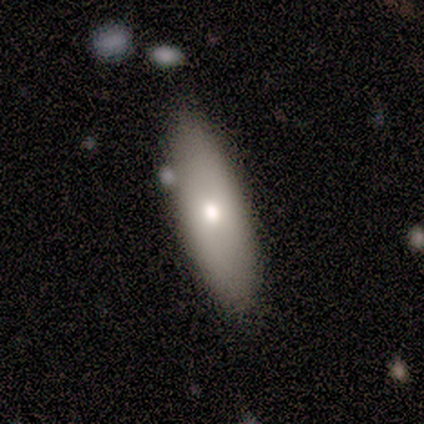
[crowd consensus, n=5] Smooth or featured? 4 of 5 (80%) said smooth. How rounded? 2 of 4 (50%, tied with cigar-shaped) said in between. Merging? 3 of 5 (60%) said none.